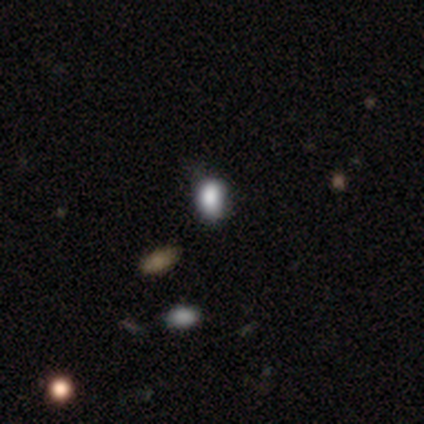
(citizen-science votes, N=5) This appears to be a smooth galaxy with no disk features (100%) that is in between round and cigar-shaped (80%). Merging: minor disturbance (60%).